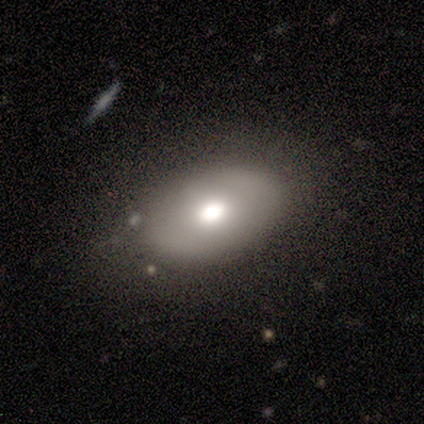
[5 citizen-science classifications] This appears to be a smooth galaxy with no disk features (60%) that is in between round and cigar-shaped (67%). Merging: none (80%).